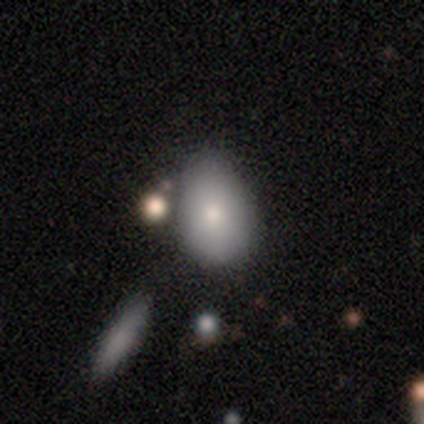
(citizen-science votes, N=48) smooth_or_featured: smooth (p=0.75) [alt: featured or disk p=0.17]
how_rounded: in between (p=0.75) [alt: round p=0.22]
merging: none (p=0.55) [alt: minor disturbance p=0.30]